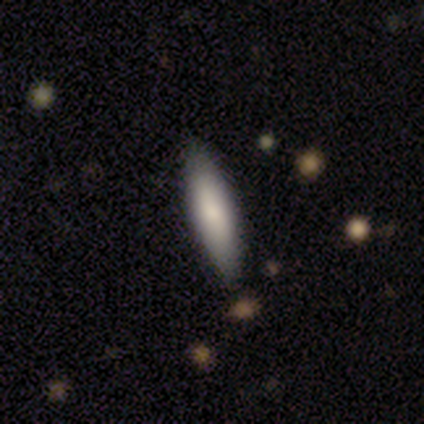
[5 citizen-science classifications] Smooth or featured: smooth — 100%
How rounded: in between — 60% (cigar-shaped — 40%)
Merging: none — 80% (minor disturbance — 20%)